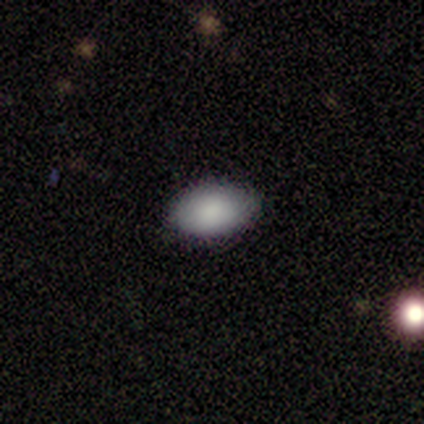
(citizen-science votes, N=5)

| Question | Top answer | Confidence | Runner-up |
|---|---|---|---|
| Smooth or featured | smooth | 80% | featured or disk (20%) |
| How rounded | in between | 100% | — |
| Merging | none | 80% | minor disturbance (20%) |